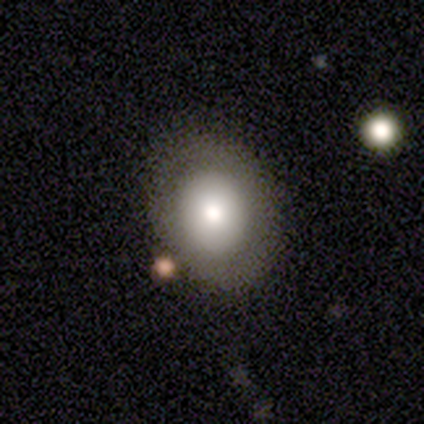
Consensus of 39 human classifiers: Smooth or featured?
  - smooth: 67% *
  - featured or disk: 23%
  - star or artifact: 10%
How rounded?
  - in between: 58% *
  - round: 42%
  - cigar-shaped: 0%
Merging?
  - none: 77% *
  - minor disturbance: 11%
  - major disturbance: 9%
  - merger: 3%